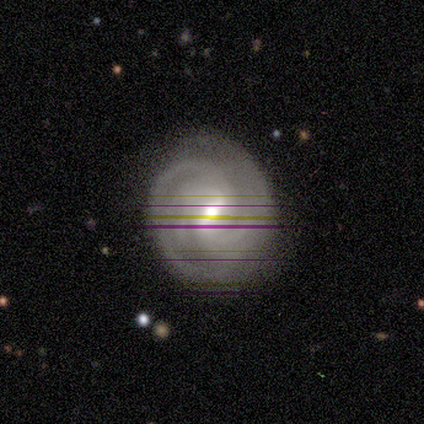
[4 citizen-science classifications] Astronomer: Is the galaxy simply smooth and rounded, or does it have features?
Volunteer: featured or disk — 75%.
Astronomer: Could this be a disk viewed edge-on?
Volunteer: no — 67%.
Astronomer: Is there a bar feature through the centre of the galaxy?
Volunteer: strong — 100%.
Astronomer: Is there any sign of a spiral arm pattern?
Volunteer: yes — 100%.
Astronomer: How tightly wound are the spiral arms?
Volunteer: tight — 100%.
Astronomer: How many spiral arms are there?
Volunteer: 2 — 100%.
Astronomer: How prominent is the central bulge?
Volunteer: moderate — 100%.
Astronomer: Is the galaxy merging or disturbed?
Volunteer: none — 100%.